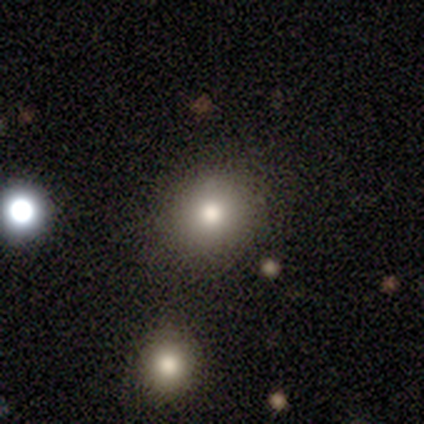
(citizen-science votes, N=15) Volunteers were most divided on "smooth or featured": smooth: 67%, star or artifact: 27%, featured or disk: 7%. More confident: merging — none (100%); how rounded — round (90%).